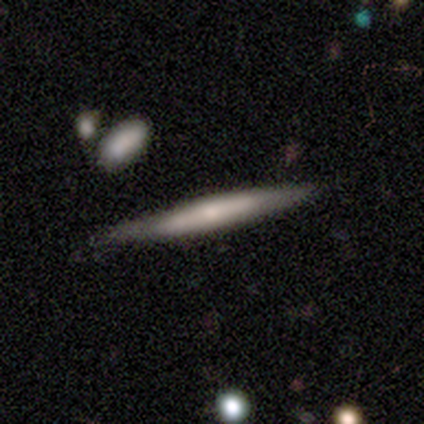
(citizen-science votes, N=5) Q: Smooth or featured?
A: featured or disk (60%); runner-up: smooth (20%)
Q: Edge-on disk?
A: yes (100%)
Q: Edge-on bulge?
A: boxy (33%); tied with: none (33%); rounded (33%)
Q: Merging?
A: none (100%)